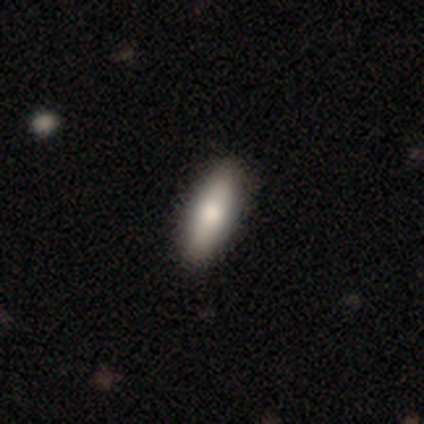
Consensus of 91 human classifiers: This appears to be a smooth galaxy with no disk features (79%) that is in between round and cigar-shaped (51%). Merging: none (93%).